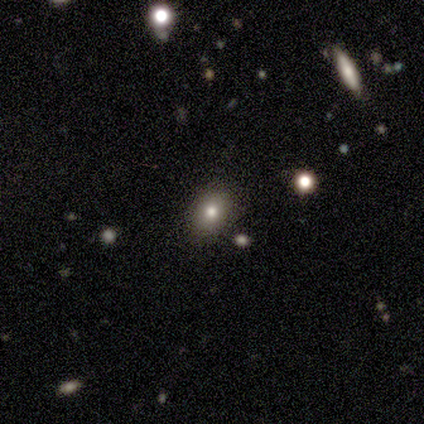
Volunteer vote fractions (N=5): A smooth galaxy with no disk features (40%, tied with star or artifact) that is in between round and cigar-shaped (100%). Merging: none (100%).